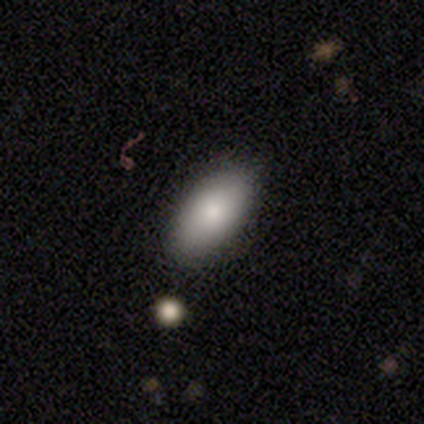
smooth-or-featured: smooth: 83% | featured or disk: 12% | star or artifact: 5%
  how-rounded: in between: 96% | cigar-shaped: 3% | round: 1%
  merging: none: 81% | minor disturbance: 12% | major disturbance: 5% | merger: 1%